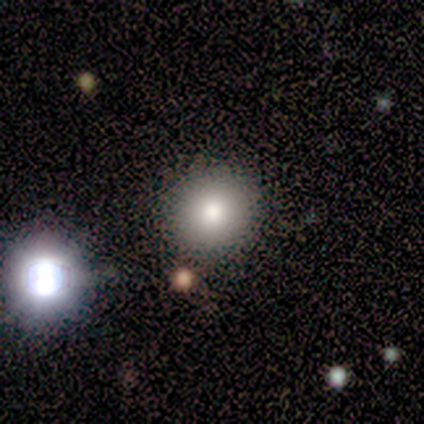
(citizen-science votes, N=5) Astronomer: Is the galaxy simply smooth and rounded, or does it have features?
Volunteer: smooth — 60% (runner-up: featured or disk, 40%).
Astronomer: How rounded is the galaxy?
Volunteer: round — 100%.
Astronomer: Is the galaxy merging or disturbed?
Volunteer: minor disturbance — 40%, tied with merger at 40%.